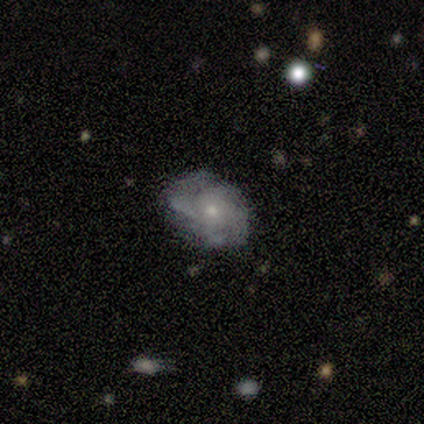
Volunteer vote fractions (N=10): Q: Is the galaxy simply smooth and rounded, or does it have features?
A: featured or disk — 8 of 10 (80%).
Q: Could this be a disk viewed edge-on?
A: no — 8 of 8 (100%).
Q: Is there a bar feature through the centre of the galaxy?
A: no — 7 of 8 (88%).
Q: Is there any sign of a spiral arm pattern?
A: yes — 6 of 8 (75%).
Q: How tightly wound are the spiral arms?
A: tight — 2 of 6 (33%, tied with medium and loose).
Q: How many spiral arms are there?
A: can't tell — 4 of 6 (67%).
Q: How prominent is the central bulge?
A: moderate — 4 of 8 (50%).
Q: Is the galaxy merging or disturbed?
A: none — 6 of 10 (60%).